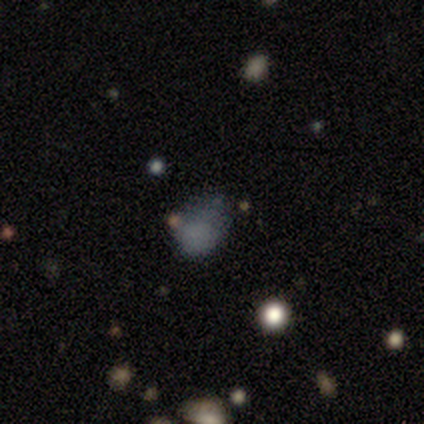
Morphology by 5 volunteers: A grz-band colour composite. It shows a smooth galaxy with no disk features (80%) that is in between round and cigar-shaped (75%). Merging: minor disturbance (75%).